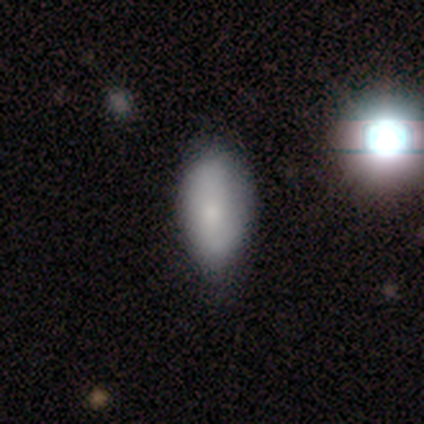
Smooth or featured?
  - smooth: 100% *
  - featured or disk: 0%
  - star or artifact: 0%
How rounded?
  - in between: 100% *
  - round: 0%
  - cigar-shaped: 0%
Merging?
  - none: 60% *
  - minor disturbance: 40%
  - major disturbance: 0%
  - merger: 0%